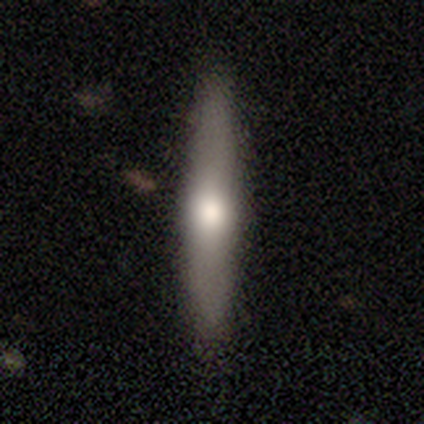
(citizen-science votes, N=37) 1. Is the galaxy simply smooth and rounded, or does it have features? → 46% smooth (tied), 46% featured or disk (tied), 8% star or artifact.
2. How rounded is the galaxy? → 71% cigar-shaped, 29% in between, 0% round.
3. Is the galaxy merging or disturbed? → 94% none, 6% minor disturbance, 0% major disturbance, 0% merger.